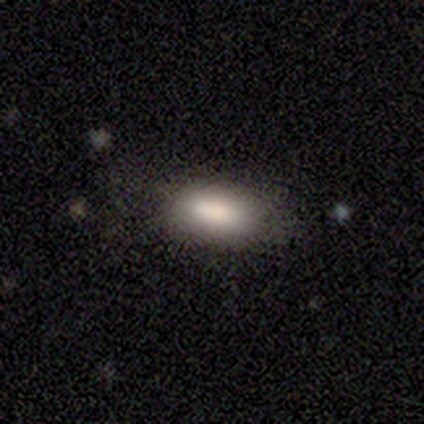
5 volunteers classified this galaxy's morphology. Volunteers were most divided on "how rounded": in between: 75%, cigar-shaped: 25%, round: 0%. More confident: merging — none (100%); smooth or featured — smooth (80%).